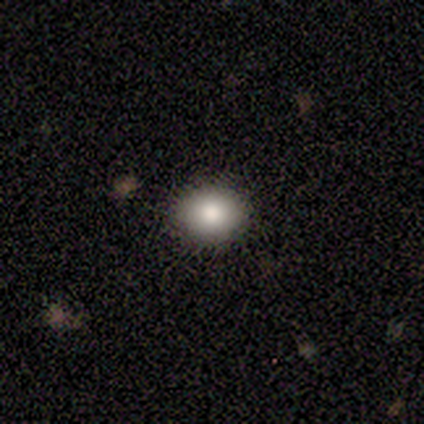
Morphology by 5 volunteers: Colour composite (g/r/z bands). It shows a smooth galaxy with no disk features (100%) that is round (80%). Merging: none (100%).